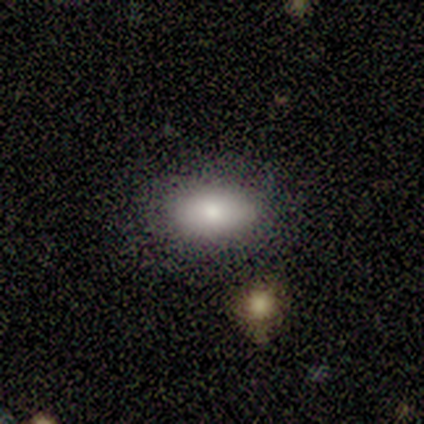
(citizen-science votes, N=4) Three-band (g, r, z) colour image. It shows a smooth galaxy with no disk features (100%) that is in between round and cigar-shaped (100%). Merging: none (75%).